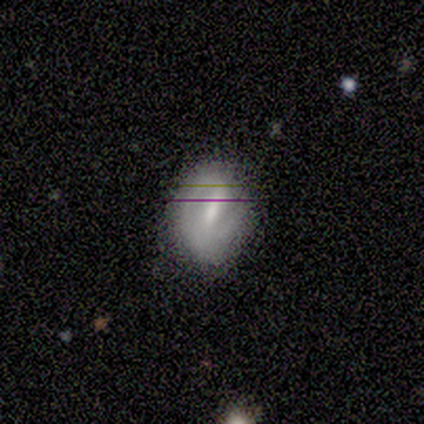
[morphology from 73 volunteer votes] type=featured or disk (51%); edge-on=no (95%); bar=strong (63%); spiral arms=yes (80%); winding=tight (57%); arm count=2 (68%); bulge=small (43%); merging=none (58%).